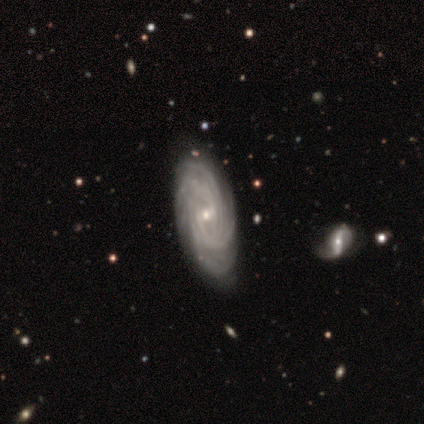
Morphology: type=featured or disk (80%); edge-on=no (75%); bar=weak (67%); spiral arms=yes (100%); winding=tight (67%); arm count=more than 4 (67%); bulge=small (67%); merging=minor disturbance (50%).